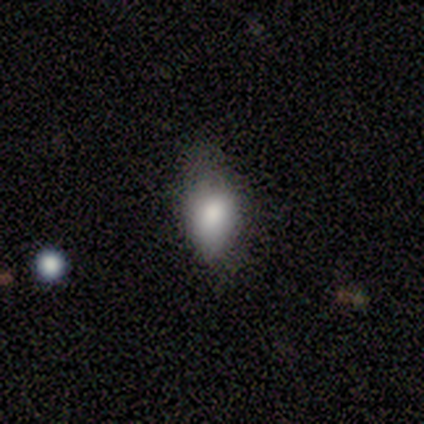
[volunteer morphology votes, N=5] Smooth or featured? smooth (80%)
How rounded? in between (75%)
Merging? minor disturbance (50%)